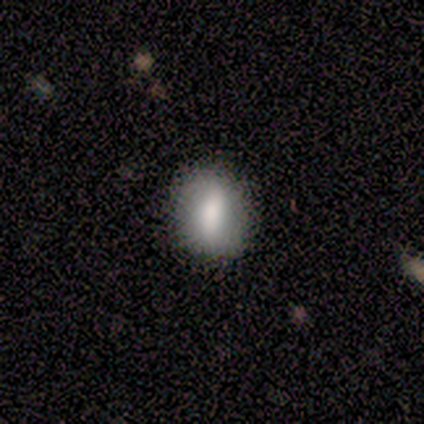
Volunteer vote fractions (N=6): Smooth or featured: smooth — 50% (star or artifact — 33%)
How rounded: in between — 67% (cigar-shaped — 33%)
Merging: none — 75% (minor disturbance — 25%)